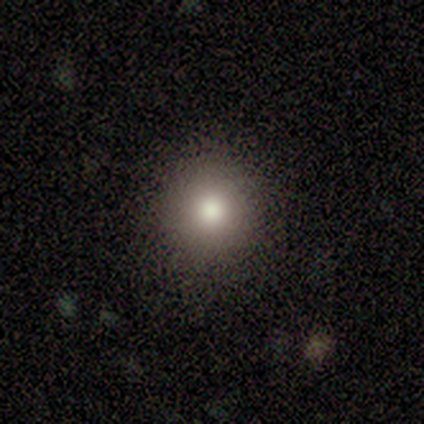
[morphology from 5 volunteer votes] Smooth or featured? 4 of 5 (80%) said smooth. How rounded? 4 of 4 (100%) said round. Merging? 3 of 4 (75%) said none.